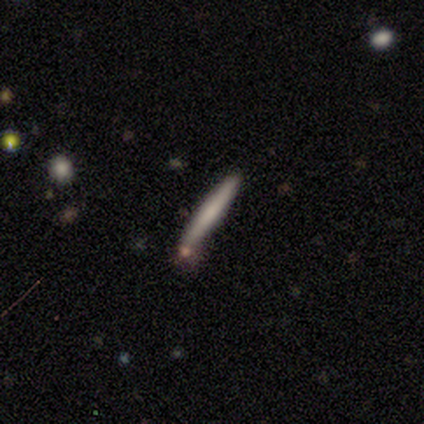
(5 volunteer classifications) Smooth or featured? 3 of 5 (60%) said smooth. How rounded? 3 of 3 (100%) said cigar-shaped. Merging? 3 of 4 (75%) said minor disturbance.